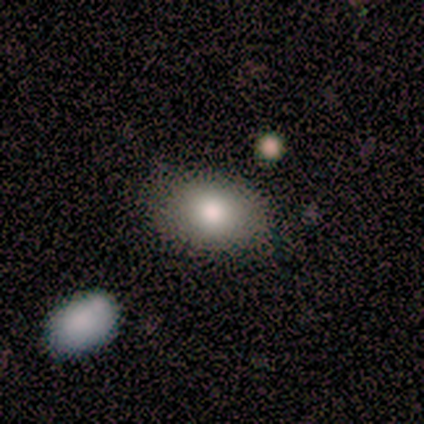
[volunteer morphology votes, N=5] smooth-or-featured: star or artifact: 60% | smooth: 40% | featured or disk: 0%